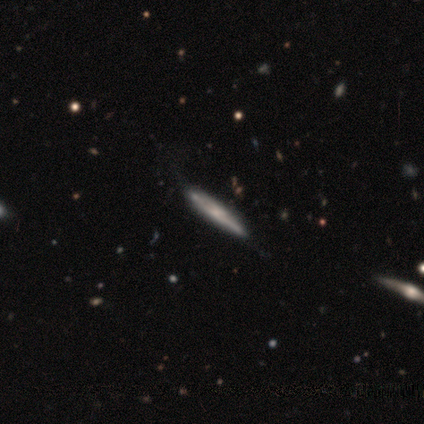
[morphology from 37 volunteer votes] Smooth or featured: featured or disk — 68% (smooth — 27%)
Edge-on disk: yes — 84% (no — 16%)
Edge-on bulge: none — 48% (rounded — 38%)
Merging: none — 43% (minor disturbance — 14%)